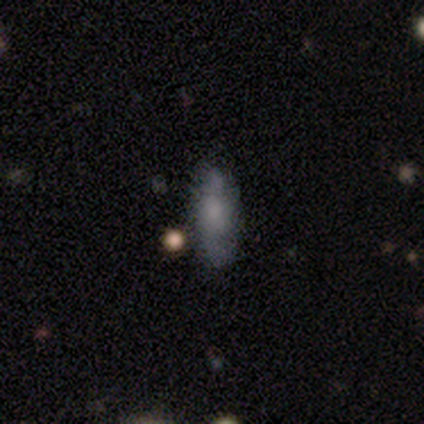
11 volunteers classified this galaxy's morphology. Q: Smooth or featured?
A: smooth (82%); runner-up: star or artifact (18%)
Q: How rounded?
A: in between (56%); runner-up: cigar-shaped (44%)
Q: Merging?
A: none (89%); runner-up: minor disturbance (11%)